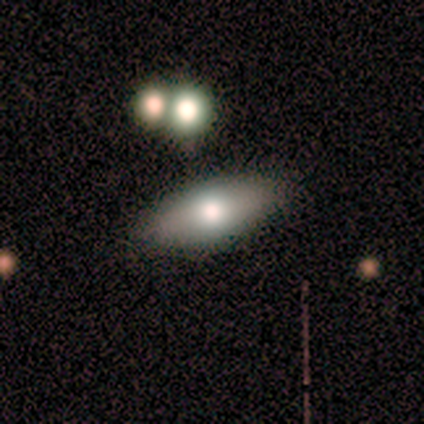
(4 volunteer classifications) This is possibly a smooth galaxy (50%, tied with featured or disk). How rounded: clearly in between (100%). Merging: clearly none (100%).